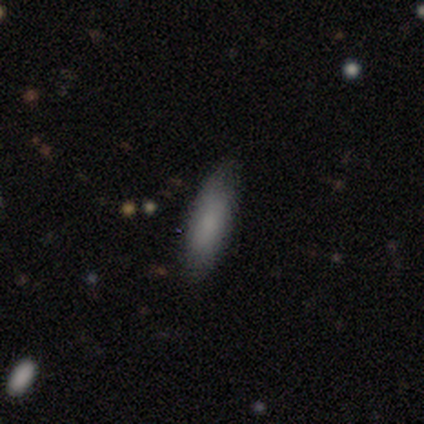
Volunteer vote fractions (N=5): Smooth or featured: smooth — 80% (star or artifact — 20%)
How rounded: in between — 75% (cigar-shaped — 25%)
Merging: none — 100%